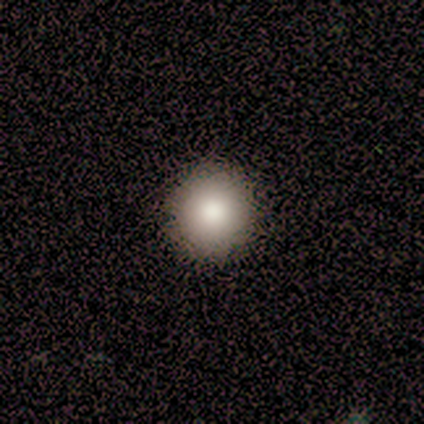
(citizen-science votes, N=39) Smooth or featured?
  - smooth: 74% *
  - featured or disk: 18%
  - star or artifact: 8%
How rounded?
  - round: 100% *
  - in between: 0%
  - cigar-shaped: 0%
Merging?
  - none: 75% *
  - minor disturbance: 0%
  - major disturbance: 0%
  - merger: 0%